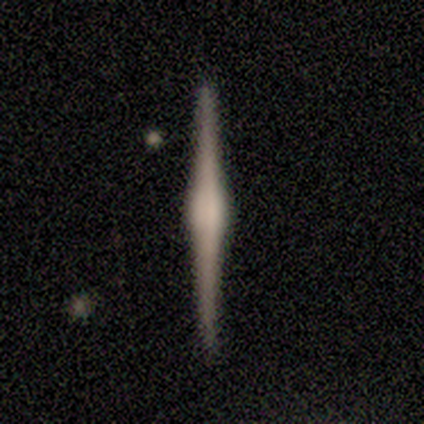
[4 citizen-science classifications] Overall: featured or disk (100%). Edge-on disk: yes (100%). Edge-on bulge: rounded (100%). Merging: none (100%).